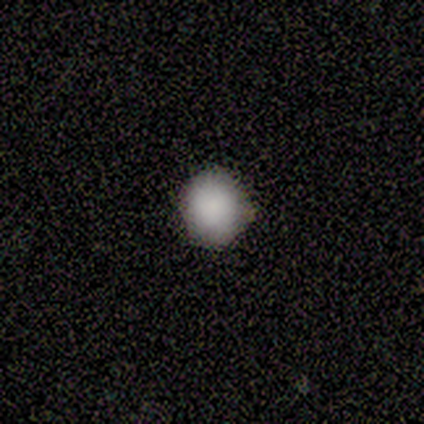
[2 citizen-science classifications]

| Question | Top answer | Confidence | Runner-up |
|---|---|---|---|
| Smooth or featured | smooth | 50% | tied: featured or disk (50%) |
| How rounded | round | 100% | — |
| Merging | none | 50% | tied: minor disturbance (50%) |